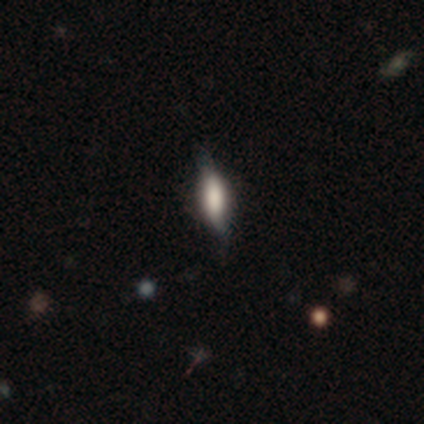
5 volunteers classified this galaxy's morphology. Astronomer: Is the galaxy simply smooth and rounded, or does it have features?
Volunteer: smooth — 60% (runner-up: featured or disk, 40%).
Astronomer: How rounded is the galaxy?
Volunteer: cigar-shaped — 100%.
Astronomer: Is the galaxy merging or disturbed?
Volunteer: none — 60% (runner-up: minor disturbance, 40%).